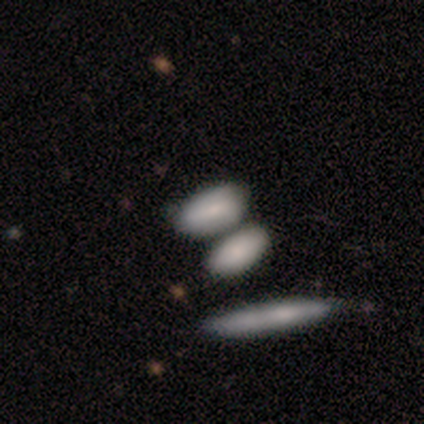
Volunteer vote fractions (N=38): Smooth or featured? smooth (87%)
How rounded? in between (94%)
Merging? none (42%, tied with merger)